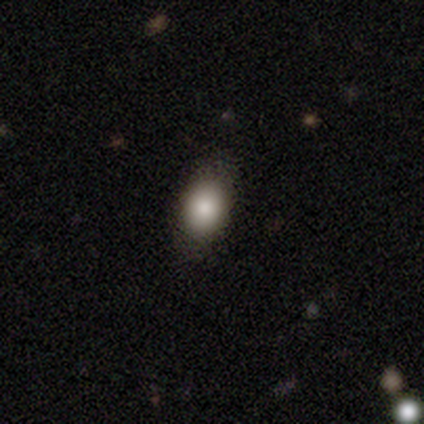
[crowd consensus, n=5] Volunteers were most divided on "merging": minor disturbance: 60%, none: 40%, major disturbance: 0%, merger: 0%. More confident: smooth or featured — smooth (80%); how rounded — in between (75%).